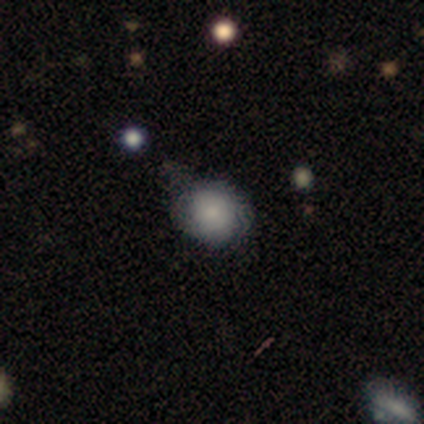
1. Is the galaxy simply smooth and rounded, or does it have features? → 88% smooth, 12% featured or disk, 0% star or artifact.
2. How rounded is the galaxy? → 71% round, 29% in between, 0% cigar-shaped.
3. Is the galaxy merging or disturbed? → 50% minor disturbance, 38% none, 12% major disturbance, 0% merger.